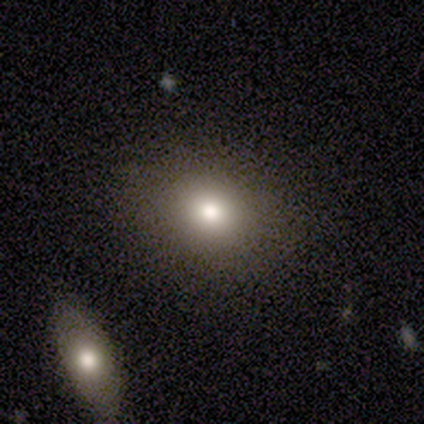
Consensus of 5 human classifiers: Q: Smooth or featured?
A: smooth (100%)
Q: How rounded?
A: round (80%); runner-up: in between (20%)
Q: Merging?
A: none (40%); runner-up: minor disturbance (20%)